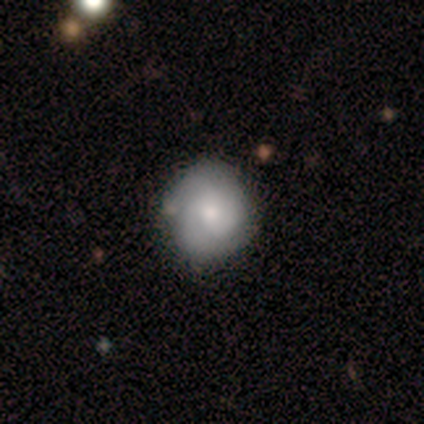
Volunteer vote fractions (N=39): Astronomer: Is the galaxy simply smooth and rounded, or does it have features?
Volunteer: featured or disk — 51% (runner-up: smooth, 44%).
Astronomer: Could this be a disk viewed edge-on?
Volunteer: no — 95%.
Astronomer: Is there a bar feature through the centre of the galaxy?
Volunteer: no — 74%.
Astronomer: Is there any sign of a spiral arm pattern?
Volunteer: yes — 74%.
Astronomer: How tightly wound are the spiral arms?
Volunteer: tight — 64%.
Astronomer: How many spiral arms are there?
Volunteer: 2 — 50% (runner-up: 3, 29%).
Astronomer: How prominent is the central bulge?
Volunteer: small — 47% (runner-up: moderate, 42%).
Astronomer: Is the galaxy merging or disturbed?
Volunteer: none — 62%.